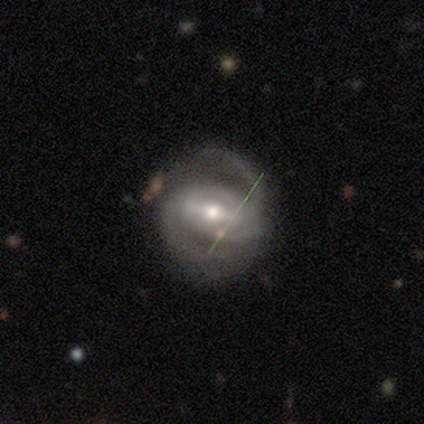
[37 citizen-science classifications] This is clearly a featured or disk galaxy (89%). It is clearly not viewed edge-on (97%). Bar: marginally strong (41%). Spiral arm pattern: clearly yes (97%). Spiral arm count: clearly 2 (84%). Spiral winding: possibly medium (48%). Central bulge: likely moderate (72%). Merging: likely none (65%).